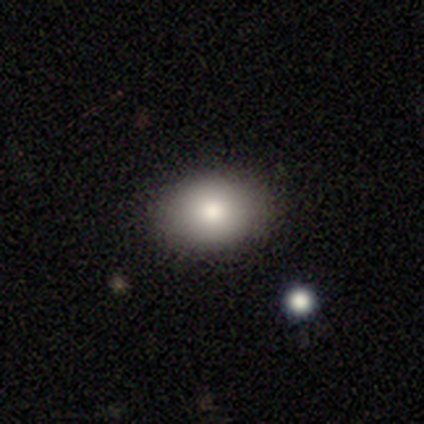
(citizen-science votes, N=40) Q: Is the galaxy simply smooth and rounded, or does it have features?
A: smooth — 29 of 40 (72%).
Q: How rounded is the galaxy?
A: in between — 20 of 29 (69%).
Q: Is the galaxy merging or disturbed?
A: none — 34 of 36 (94%).